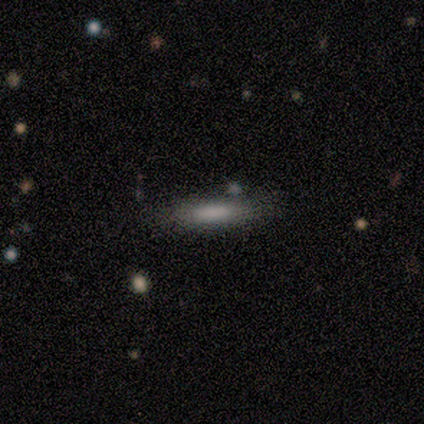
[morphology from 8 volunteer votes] Overall: smooth (50%; featured or disk 38%). How rounded: in between (50%, tied with cigar-shaped). Merging: none (100%).